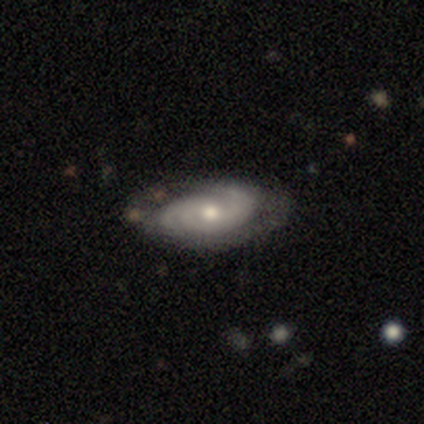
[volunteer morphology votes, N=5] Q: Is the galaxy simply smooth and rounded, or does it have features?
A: featured or disk — 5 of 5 (100%).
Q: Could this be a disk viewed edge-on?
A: no — 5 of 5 (100%).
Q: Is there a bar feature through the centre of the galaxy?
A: no — 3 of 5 (60%).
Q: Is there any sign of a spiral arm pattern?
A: yes — 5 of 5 (100%).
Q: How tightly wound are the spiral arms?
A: medium — 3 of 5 (60%).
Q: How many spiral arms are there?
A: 2 — 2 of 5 (40%, tied with 3).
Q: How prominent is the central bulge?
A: moderate — 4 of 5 (80%).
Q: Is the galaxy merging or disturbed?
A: none — 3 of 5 (60%).